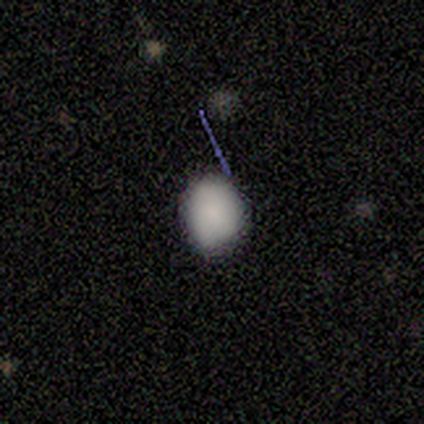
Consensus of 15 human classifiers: A smooth galaxy with no disk features (87%) that is round (62%).

Vote fractions:
- Smooth or featured? smooth: 87% / featured or disk: 7% / star or artifact: 7%
- How rounded? round: 62% / in between: 38% / cigar-shaped: 0%
- Merging? none: 71% / minor disturbance: 29% / major disturbance: 0% / merger: 0%